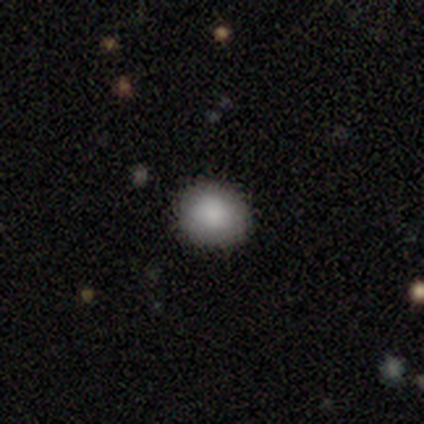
smooth_or_featured: smooth (p=1.00)
how_rounded: round (p=0.86) [alt: in between p=0.14]
merging: none (p=0.86) [alt: minor disturbance p=0.14]